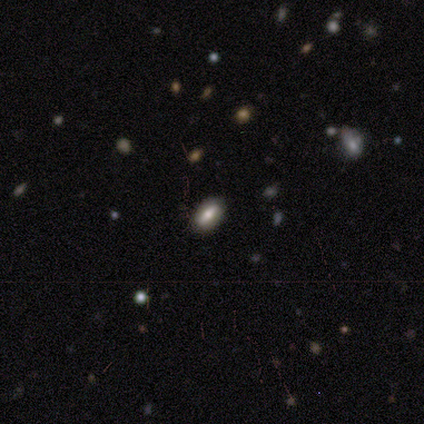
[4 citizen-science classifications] smooth-or-featured: smooth: 75% | star or artifact: 25% | featured or disk: 0%
  how-rounded: in between: 100% | round: 0% | cigar-shaped: 0%
  merging: none: 100% | minor disturbance: 0% | major disturbance: 0% | merger: 0%